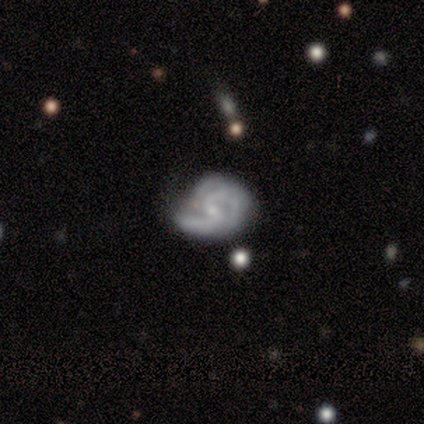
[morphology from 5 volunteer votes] A featured or disk galaxy (100%) with a weak bar (60%), 3 (40%, tied with can't tell) medium (60%) spiral arms (100%) and a small central bulge (60%).

Vote fractions:
- Smooth or featured? featured or disk: 100% / smooth: 0% / star or artifact: 0%
- Edge-on disk? no: 100% / yes: 0%
- Bar? weak: 60% / no: 40% / strong: 0%
- Spiral arms? yes: 100% / no: 0%
- Spiral winding? medium: 60% / tight: 40% / loose: 0%
- Spiral arm count? 3: 40% (tied) / can't tell: 40% (tied) / 2: 20% / 1: 0% / 4: 0% / more than 4: 0%
- Bulge size? small: 60% / moderate: 20% / none: 20% / dominant: 0% / large: 0%
- Merging? minor disturbance: 60% / none: 40% / major disturbance: 0% / merger: 0%